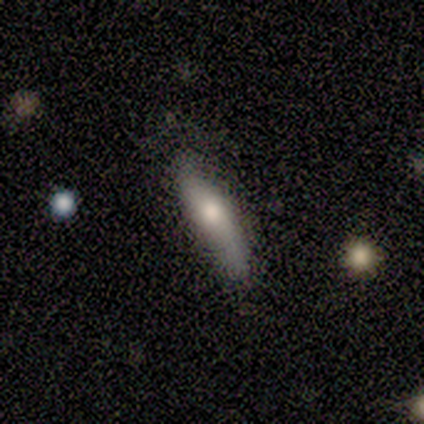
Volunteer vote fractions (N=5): This is clearly a featured or disk galaxy (80%). It is possibly viewed edge-on (50%, tied with no). Edge-on bulge: possibly boxy (50%, tied with none). Merging: likely none (60%).